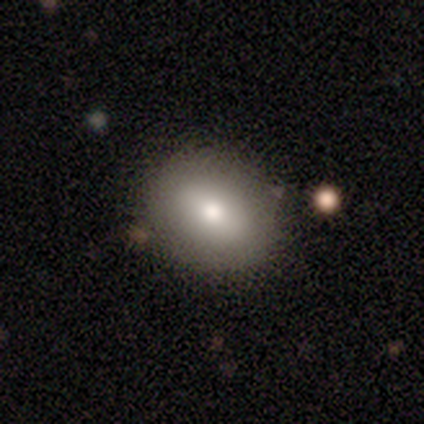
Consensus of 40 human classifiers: Smooth or featured: smooth — 78% (featured or disk — 22%)
How rounded: in between — 52% (round — 48%)
Merging: none — 75% (minor disturbance — 18%)